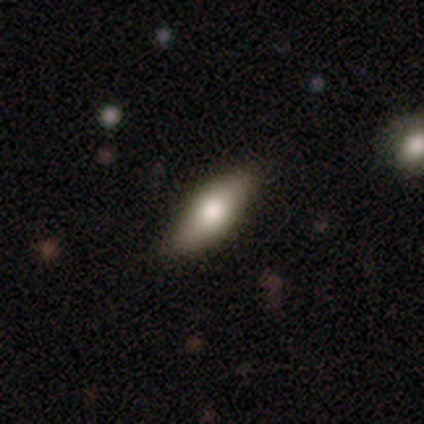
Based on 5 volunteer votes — Volunteers were most divided on "edge-on disk": yes: 75%, no: 25%. More confident: edge-on bulge — rounded (100%); merging — none (100%); smooth or featured — featured or disk (80%).